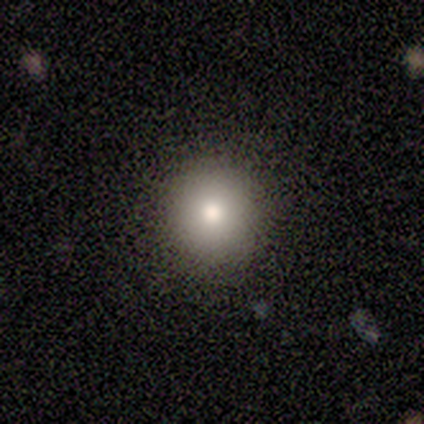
smooth 80%, featured or disk 20%, star or artifact 0%. Down the decision tree: how rounded — round (100%); merging — none (100%).